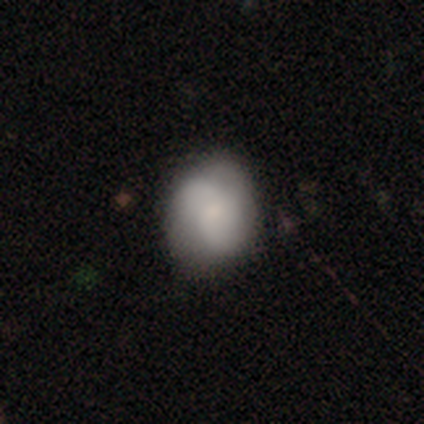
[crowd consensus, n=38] A smooth galaxy with no disk features (61%) that is round (65%).

Vote fractions:
- Smooth or featured? smooth: 61% / featured or disk: 37% / star or artifact: 3%
- How rounded? round: 65% / in between: 35% / cigar-shaped: 0%
- Merging? none: 76% / minor disturbance: 19% / major disturbance: 3% / merger: 3%